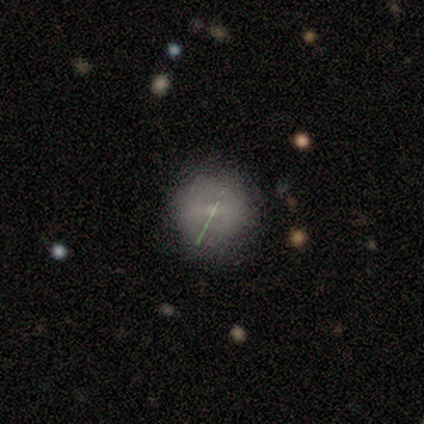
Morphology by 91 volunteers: Q: Smooth or featured?
A: smooth (47%); runner-up: featured or disk (40%)
Q: How rounded?
A: round (95%); runner-up: in between (5%)
Q: Merging?
A: none (84%); runner-up: minor disturbance (14%)